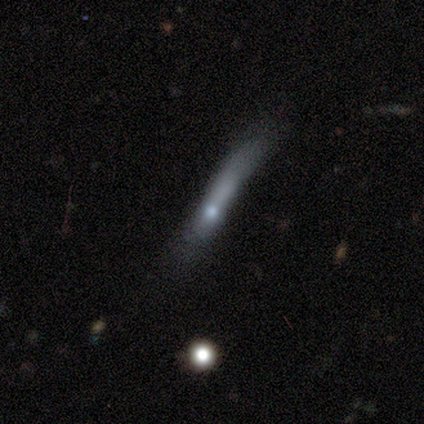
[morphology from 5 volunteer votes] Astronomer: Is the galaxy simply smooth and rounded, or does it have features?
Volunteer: featured or disk — 60% (runner-up: smooth, 40%).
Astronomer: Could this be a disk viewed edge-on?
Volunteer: yes — 100%.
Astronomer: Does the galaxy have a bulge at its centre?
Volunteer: rounded — 67%.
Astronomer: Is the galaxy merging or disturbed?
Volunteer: minor disturbance — 40%, tied with major disturbance at 40%.